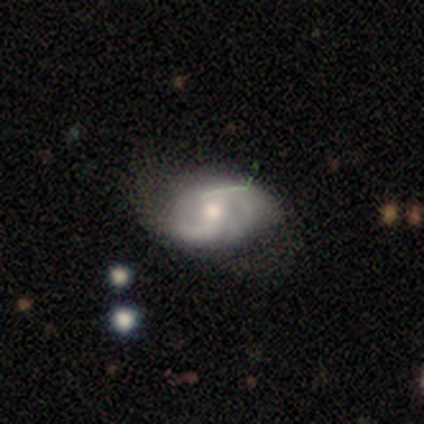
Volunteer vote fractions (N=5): Q: Smooth or featured?
A: featured or disk (100%)
Q: Edge-on disk?
A: no (100%)
Q: Bar?
A: no (80%); runner-up: strong (20%)
Q: Spiral arms?
A: yes (80%); runner-up: no (20%)
Q: Spiral winding?
A: medium (50%); runner-up: tight (25%)
Q: Spiral arm count?
A: 2 (75%); runner-up: can't tell (25%)
Q: Bulge size?
A: moderate (80%); runner-up: dominant (20%)
Q: Merging?
A: minor disturbance (60%); runner-up: none (40%)